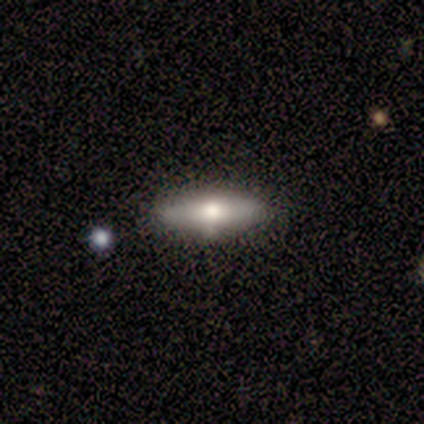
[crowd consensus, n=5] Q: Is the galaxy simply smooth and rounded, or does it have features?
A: smooth — 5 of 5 (100%).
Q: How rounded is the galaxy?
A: cigar-shaped — 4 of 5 (80%).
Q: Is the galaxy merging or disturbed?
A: none — 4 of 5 (80%).